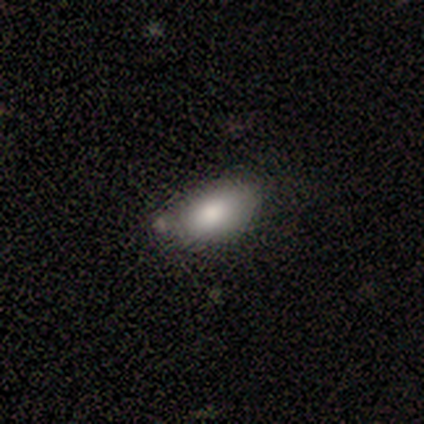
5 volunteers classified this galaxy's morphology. A smooth galaxy with no disk features (80%) that is in between round and cigar-shaped (100%). Merging: none (75%).